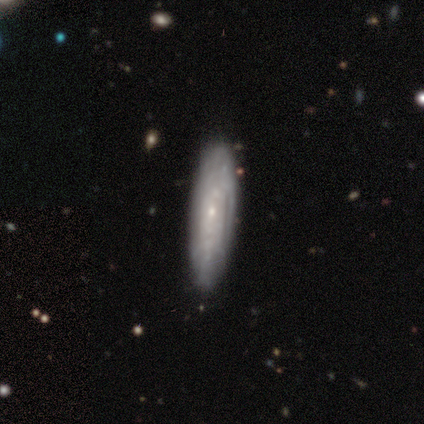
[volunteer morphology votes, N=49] smooth_or_featured: featured or disk (p=0.55) [alt: smooth p=0.43]
disk_edge_on: no (p=0.67) [alt: yes p=0.33]
bar: no (p=0.89) [alt: weak p=0.11]
has_spiral_arms: yes (p=0.83) [alt: no p=0.17]
spiral_winding: tight (p=0.87) [alt: medium p=0.13]
spiral_arm_count: can't tell (p=0.87) [alt: 1 p=0.07]
bulge_size: small (p=0.83) [alt: none p=0.11]
merging: none (p=0.83) [alt: minor disturbance p=0.15]